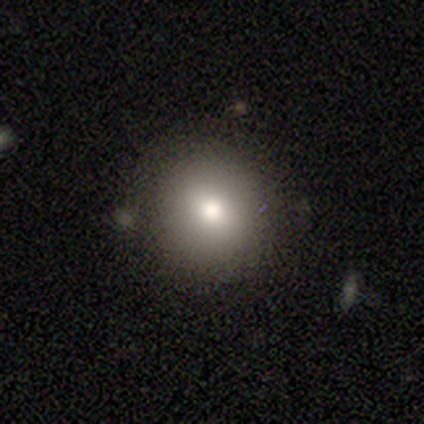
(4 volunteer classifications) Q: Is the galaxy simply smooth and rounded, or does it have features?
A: smooth — 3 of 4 (75%).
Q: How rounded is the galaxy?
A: round — 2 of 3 (67%).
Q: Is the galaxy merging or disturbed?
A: none — 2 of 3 (67%).